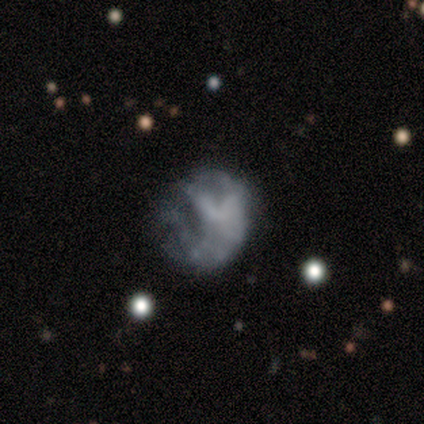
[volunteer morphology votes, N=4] Smooth or featured? smooth (50%)
How rounded? round (100%)
Merging? none (100%)